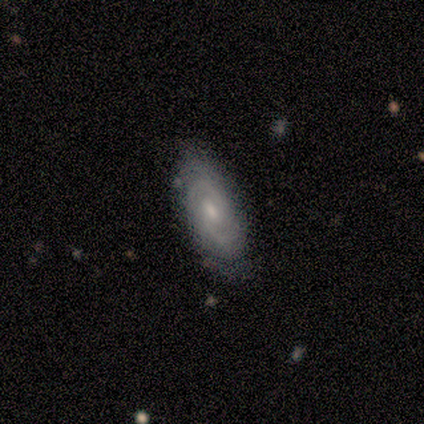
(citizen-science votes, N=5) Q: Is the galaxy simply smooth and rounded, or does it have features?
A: featured or disk — 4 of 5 (80%).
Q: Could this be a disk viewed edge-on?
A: no — 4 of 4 (100%).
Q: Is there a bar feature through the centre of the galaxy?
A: no — 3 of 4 (75%).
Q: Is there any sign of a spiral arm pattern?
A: yes — 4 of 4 (100%).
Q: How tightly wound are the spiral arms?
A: tight — 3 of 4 (75%).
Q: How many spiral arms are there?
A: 2 — 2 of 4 (50%, tied with can't tell).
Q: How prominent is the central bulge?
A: moderate — 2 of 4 (50%, tied with small).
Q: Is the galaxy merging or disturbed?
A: none — 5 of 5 (100%).